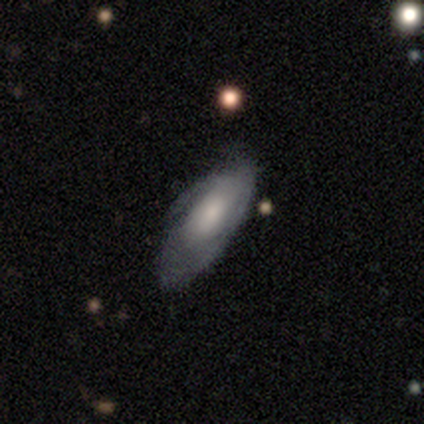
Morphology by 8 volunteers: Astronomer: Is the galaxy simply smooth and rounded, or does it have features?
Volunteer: smooth — 50% (runner-up: featured or disk, 38%).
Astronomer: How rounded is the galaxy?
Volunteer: in between — 50%.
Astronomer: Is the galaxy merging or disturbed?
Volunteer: none — 86%.